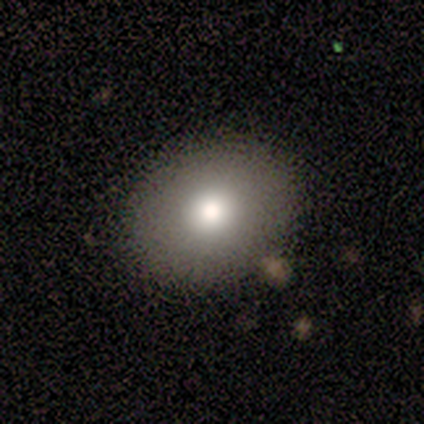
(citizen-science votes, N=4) Smooth or featured? smooth (100%)
How rounded? round (50%, tied with in between)
Merging? none (100%)